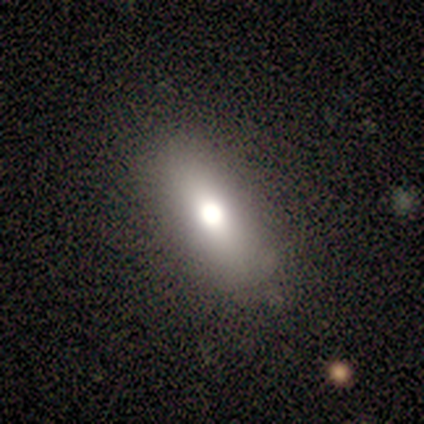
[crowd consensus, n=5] Smooth or featured?
  - smooth: 60% *
  - featured or disk: 40%
  - star or artifact: 0%
How rounded?
  - in between: 67% *
  - cigar-shaped: 33%
  - round: 0%
Merging?
  - none: 80% *
  - minor disturbance: 20%
  - major disturbance: 0%
  - merger: 0%